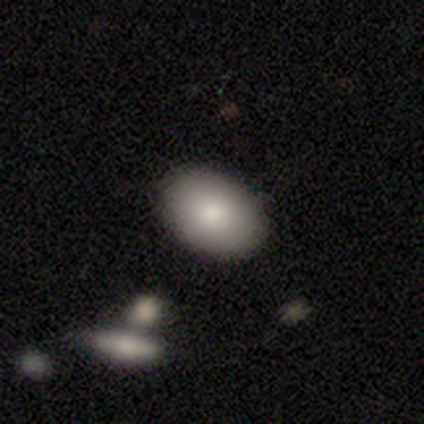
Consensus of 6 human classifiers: A smooth galaxy with no disk features (100%) that is in between round and cigar-shaped (83%). Merging: none (100%).